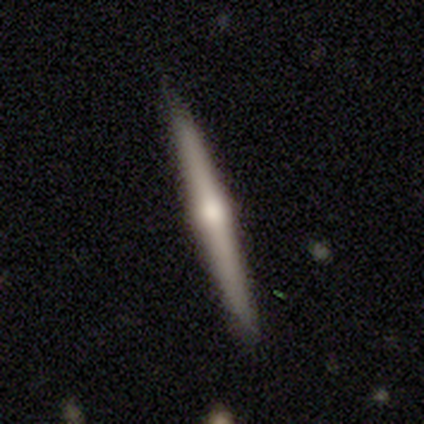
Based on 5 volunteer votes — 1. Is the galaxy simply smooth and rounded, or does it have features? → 60% smooth, 40% featured or disk, 0% star or artifact.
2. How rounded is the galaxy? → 100% cigar-shaped, 0% round, 0% in between.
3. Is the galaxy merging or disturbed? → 100% none, 0% minor disturbance, 0% major disturbance, 0% merger.